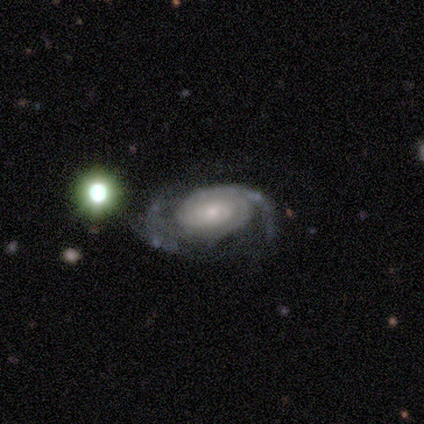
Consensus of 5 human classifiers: Smooth or featured: featured or disk — 80% (star or artifact — 20%)
Edge-on disk: no — 100%
Bar: no — 100%
Spiral arms: yes — 100%
Spiral winding: tight — 50% (tied with medium — 50%)
Spiral arm count: 2 — 75% (1 — 25%)
Bulge size: small — 75% (large — 25%)
Merging: none — 50% (minor disturbance — 25%)